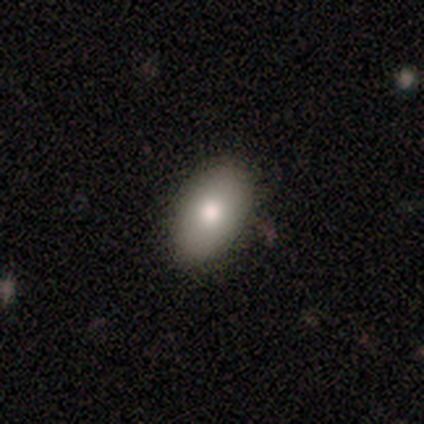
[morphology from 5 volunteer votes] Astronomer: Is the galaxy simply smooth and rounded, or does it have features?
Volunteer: smooth — 100%.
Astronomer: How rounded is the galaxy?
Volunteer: in between — 100%.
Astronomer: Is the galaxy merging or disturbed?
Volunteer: none — 100%.